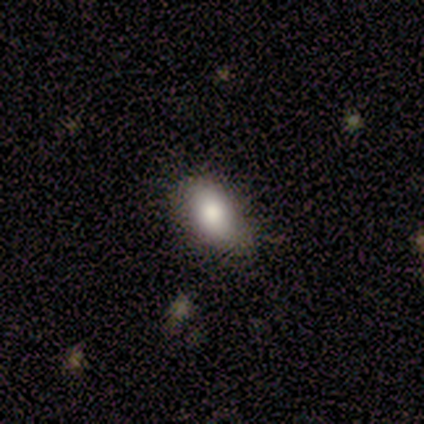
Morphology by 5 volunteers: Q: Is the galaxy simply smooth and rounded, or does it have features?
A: smooth — 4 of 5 (80%).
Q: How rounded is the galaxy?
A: in between — 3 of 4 (75%).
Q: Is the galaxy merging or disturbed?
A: none — 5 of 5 (100%).